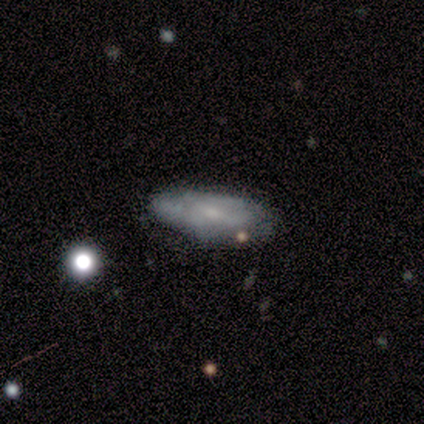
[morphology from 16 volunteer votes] Overall: featured or disk (69%). Edge-on disk: no (91%). Bar: weak (60%; no 40%). Spiral arms: yes (50%, tied with no). Spiral arm count: can't tell (80%). Spiral winding: tight (60%; medium 40%). Bulge size: small (90%). Merging: none (64%; minor disturbance 36%).